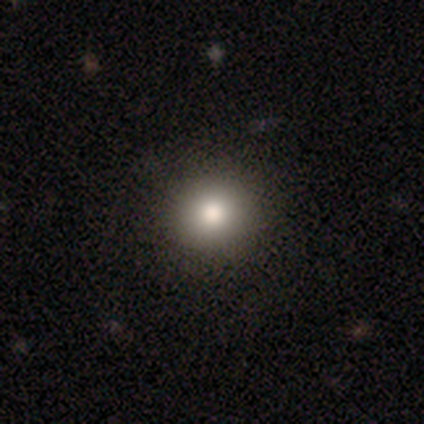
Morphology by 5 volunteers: A smooth galaxy with no disk features (80%) that is round (75%). Merging: none (80%).